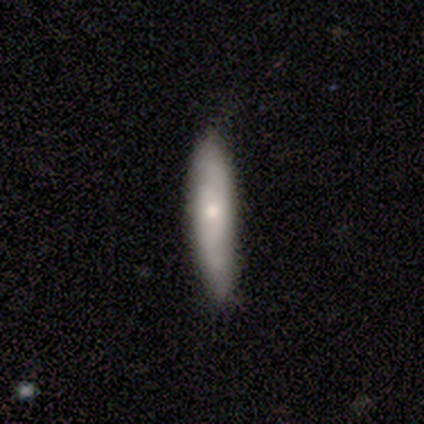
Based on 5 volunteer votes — Morphology: type=smooth (80%); roundness=cigar-shaped (100%); merging=none (80%).